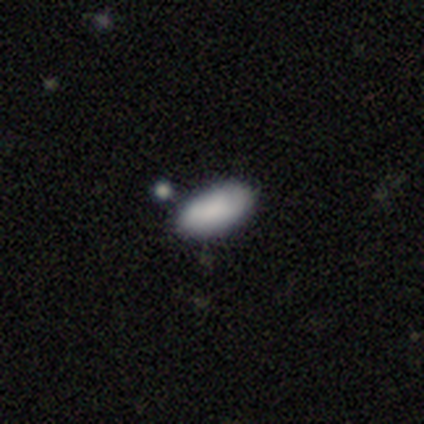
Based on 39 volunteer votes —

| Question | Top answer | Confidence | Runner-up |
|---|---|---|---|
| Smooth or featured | smooth | 85% | featured or disk (13%) |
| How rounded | in between | 94% | round (3%) |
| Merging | none | 58% | merger (21%) |